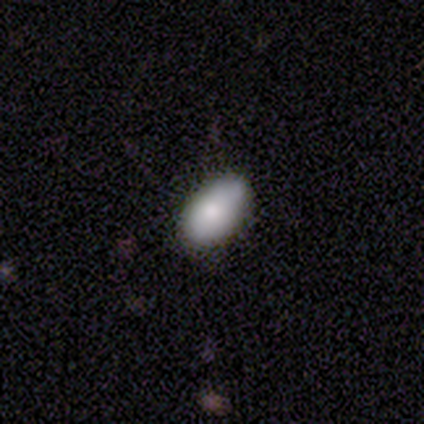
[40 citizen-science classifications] Morphology: type=smooth (70%); roundness=in between (96%); merging=none (70%).